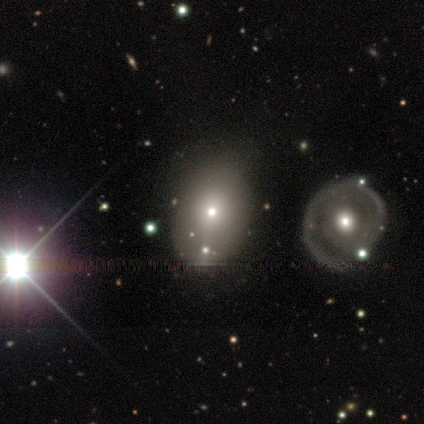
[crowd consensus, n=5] This appears to be a smooth galaxy with no disk features (60%) that is in between round and cigar-shaped (67%). Merging: none (40%).